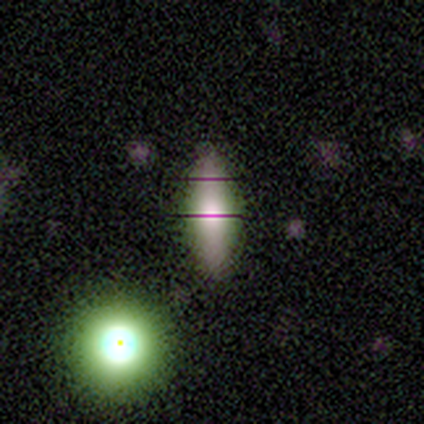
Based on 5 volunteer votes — smooth_or_featured: featured or disk (p=0.40) [tied with: star or artifact p=0.40]
disk_edge_on: yes (p=0.50) [tied with: no p=0.50]
edge_on_bulge: rounded (p=1.00)
merging: none (p=1.00)